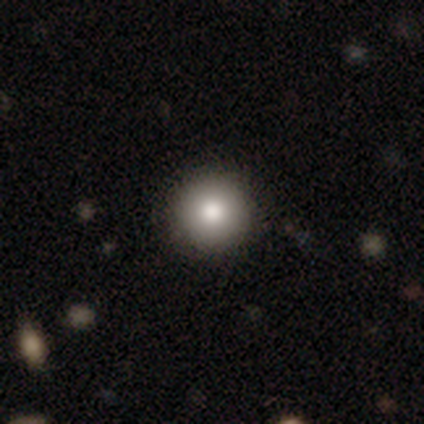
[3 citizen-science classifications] This is clearly a smooth galaxy (100%). How rounded: clearly round (100%). Merging: clearly none (100%).